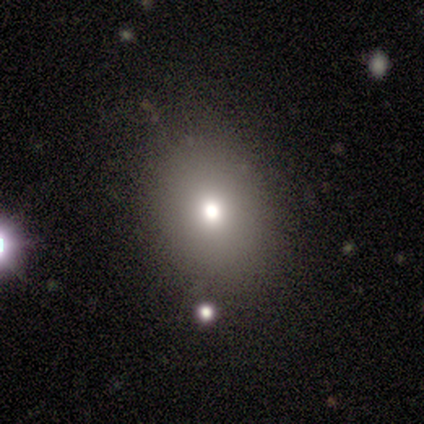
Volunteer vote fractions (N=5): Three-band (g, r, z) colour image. It shows a smooth galaxy with no disk features (100%) that is round (60%). Merging: none (100%).